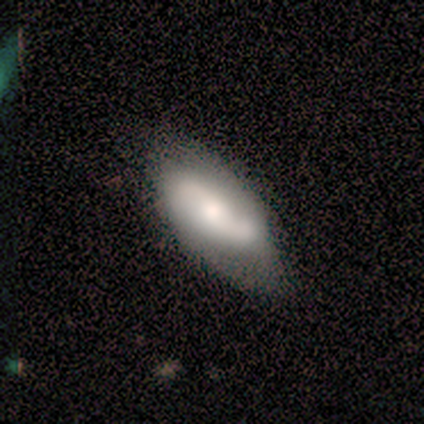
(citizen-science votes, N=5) A featured or disk galaxy (100%) with a weak bar (60%), no spiral arms (60%) and a small central bulge (40%). Merging: none (80%).